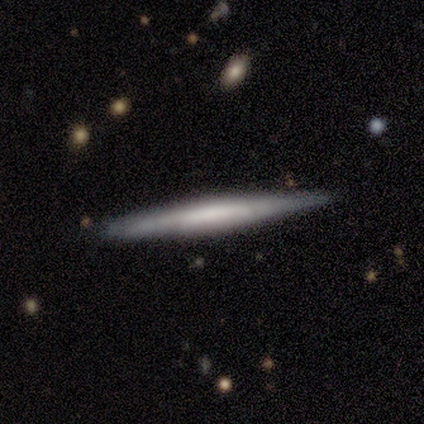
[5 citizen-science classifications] smooth-or-featured: smooth: 80% | featured or disk: 20% | star or artifact: 0%
  how-rounded: cigar-shaped: 100% | round: 0% | in between: 0%
  merging: none: 100% | minor disturbance: 0% | major disturbance: 0% | merger: 0%